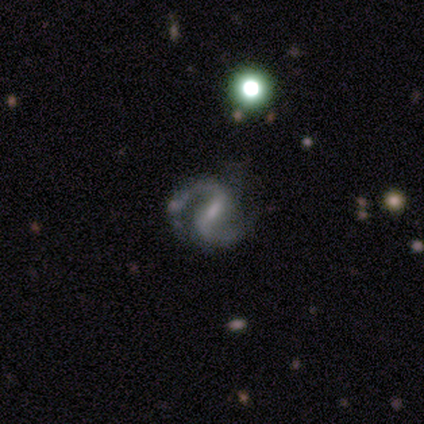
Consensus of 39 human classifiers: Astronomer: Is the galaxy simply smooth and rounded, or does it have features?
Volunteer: featured or disk — 82%.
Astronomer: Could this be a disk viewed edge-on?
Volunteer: no — 100%.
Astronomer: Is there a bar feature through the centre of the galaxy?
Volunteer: weak — 56% (runner-up: strong, 38%).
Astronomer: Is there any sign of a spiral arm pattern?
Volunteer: yes — 100%.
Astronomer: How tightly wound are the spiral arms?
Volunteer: medium — 72%.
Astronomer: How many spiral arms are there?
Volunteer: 2 — 97%.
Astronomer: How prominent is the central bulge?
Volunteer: small — 66%.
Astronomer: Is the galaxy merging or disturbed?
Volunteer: none — 71%.